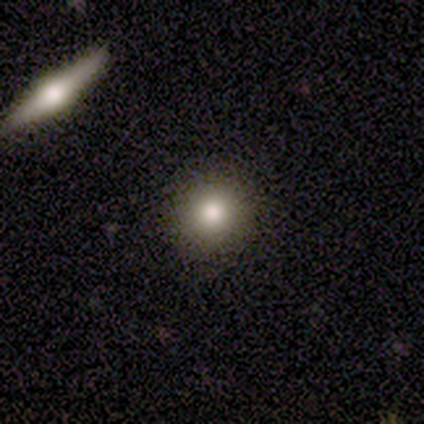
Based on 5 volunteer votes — A smooth galaxy with no disk features (100%) that is round (100%). Merging: none (80%).